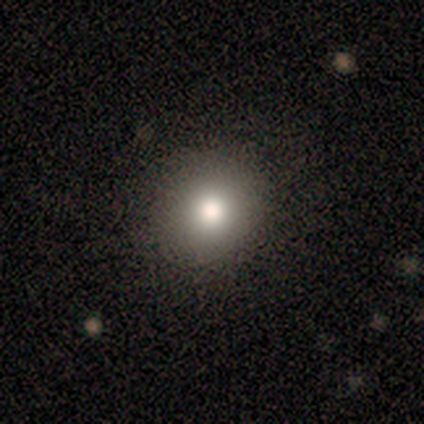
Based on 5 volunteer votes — smooth-or-featured: smooth: 100% | featured or disk: 0% | star or artifact: 0%
  how-rounded: round: 100% | in between: 0% | cigar-shaped: 0%
  merging: none: 100% | minor disturbance: 0% | major disturbance: 0% | merger: 0%